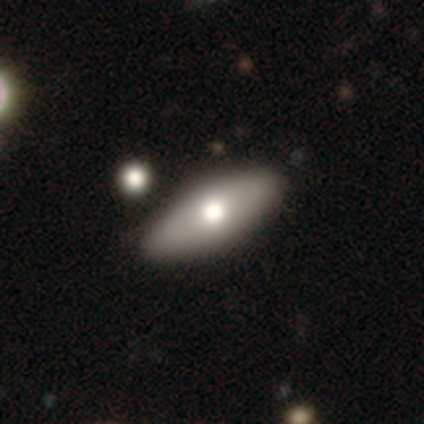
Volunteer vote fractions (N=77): Morphology: type=smooth (66%); roundness=in between (78%); merging=none (47%).